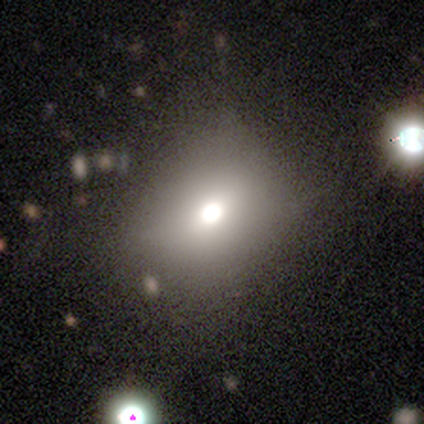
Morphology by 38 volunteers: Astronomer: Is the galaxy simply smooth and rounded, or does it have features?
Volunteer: smooth — 74%.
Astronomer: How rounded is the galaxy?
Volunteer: round — 50%, tied with in between at 50%.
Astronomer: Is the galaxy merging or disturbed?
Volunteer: none — 71%.